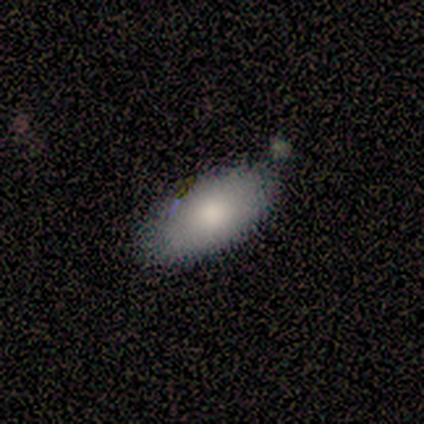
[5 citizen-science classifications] Smooth or featured? smooth (80%)
How rounded? in between (75%)
Merging? none (80%)